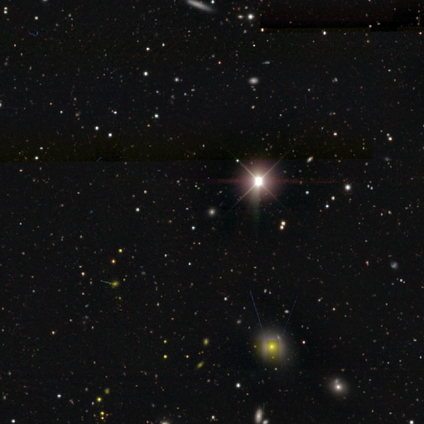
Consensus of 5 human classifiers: This appears to be a star or artifact, not a galaxy (100%).